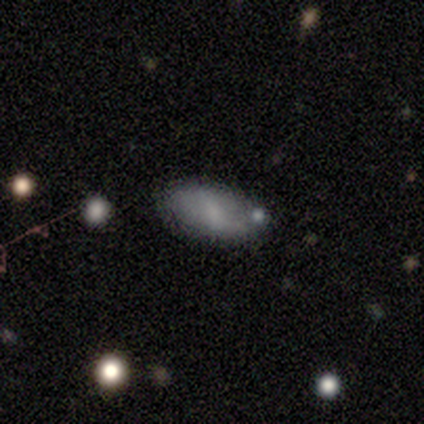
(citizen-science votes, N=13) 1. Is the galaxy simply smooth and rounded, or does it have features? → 62% smooth, 38% featured or disk, 0% star or artifact.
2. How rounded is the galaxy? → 88% in between, 12% round, 0% cigar-shaped.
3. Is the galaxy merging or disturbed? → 77% none, 15% minor disturbance, 8% merger, 0% major disturbance.